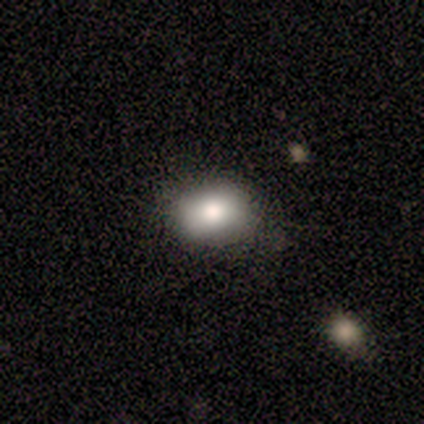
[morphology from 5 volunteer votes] Smooth or featured? smooth (80%)
How rounded? in between (100%)
Merging? none (100%)